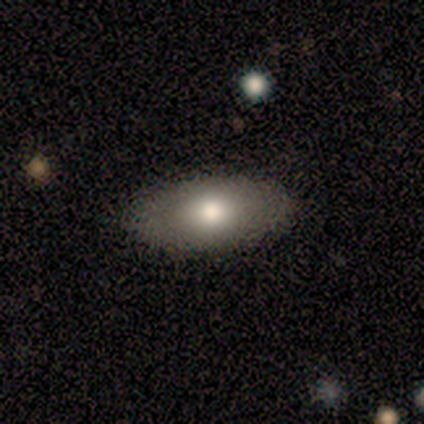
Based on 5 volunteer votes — smooth 80%, star or artifact 20%, featured or disk 0%. Down the decision tree: how rounded — in between (50%); merging — none (100%).